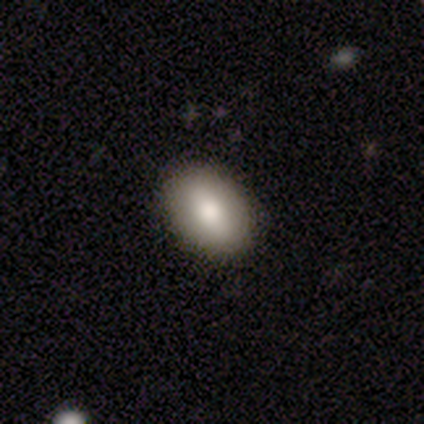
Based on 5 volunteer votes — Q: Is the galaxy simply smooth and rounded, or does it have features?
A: smooth — 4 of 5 (80%).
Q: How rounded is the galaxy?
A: in between — 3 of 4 (75%).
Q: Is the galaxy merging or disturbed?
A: none — 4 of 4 (100%).